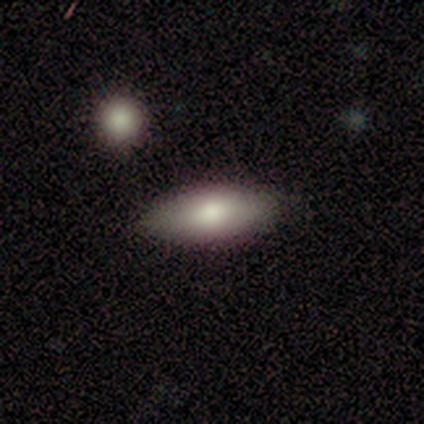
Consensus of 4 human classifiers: Smooth or featured? 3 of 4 (75%) said smooth. How rounded? 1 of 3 (33%, tied with in between and cigar-shaped) said round. Merging? 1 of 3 (33%, tied with minor disturbance and major disturbance) said none.